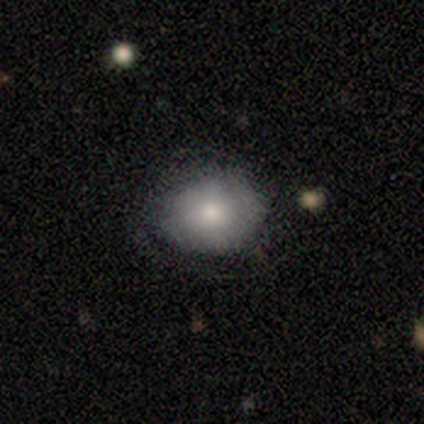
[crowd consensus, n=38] This is likely a smooth galaxy (66%). How rounded: likely round (72%). Merging: possibly none (57%).